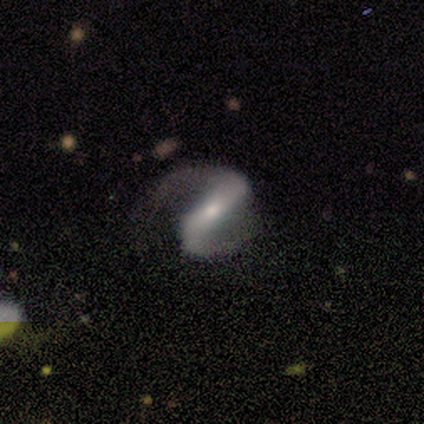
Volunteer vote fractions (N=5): Q: Smooth or featured?
A: featured or disk (100%)
Q: Edge-on disk?
A: no (80%); runner-up: yes (20%)
Q: Bar?
A: strong (75%); runner-up: no (25%)
Q: Spiral arms?
A: yes (100%)
Q: Spiral winding?
A: loose (75%); runner-up: tight (25%)
Q: Spiral arm count?
A: 2 (75%); runner-up: can't tell (25%)
Q: Bulge size?
A: small (50%); runner-up: moderate (25%)
Q: Merging?
A: none (60%); runner-up: major disturbance (40%)